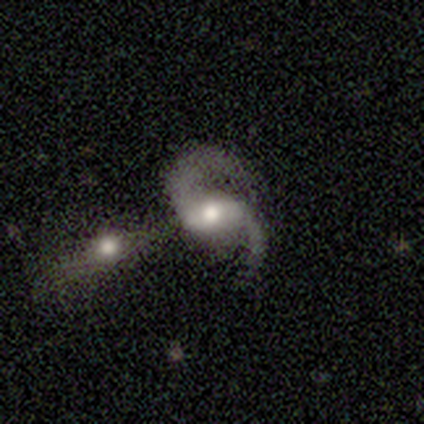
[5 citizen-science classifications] Morphology: type=featured or disk (100%); edge-on=no (100%); bar=weak (40%, tied with no); spiral arms=yes (100%); winding=loose (60%); arm count=2 (80%); bulge=moderate (80%); merging=merger (80%).